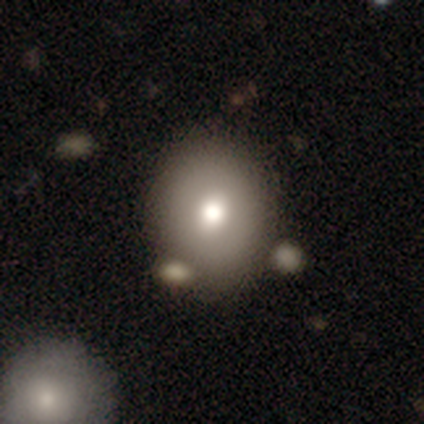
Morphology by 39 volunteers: A smooth galaxy with no disk features (62%) that is round (50%, tied with in between).

Vote fractions:
- Smooth or featured? smooth: 62% / featured or disk: 26% / star or artifact: 13%
- How rounded? round: 50% (tied) / in between: 50% (tied) / cigar-shaped: 0%
- Merging? none: 68% / minor disturbance: 18% / merger: 15% / major disturbance: 0%